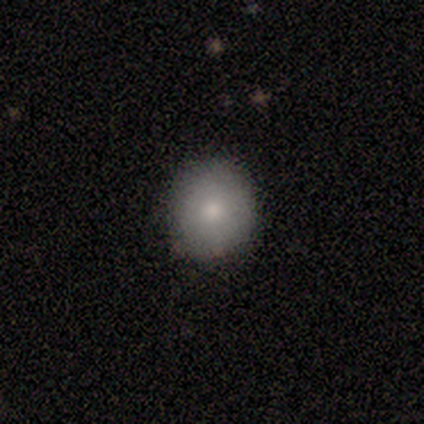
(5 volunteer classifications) Smooth or featured? 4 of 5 (80%) said smooth. How rounded? 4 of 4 (100%) said round. Merging? 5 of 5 (100%) said none.